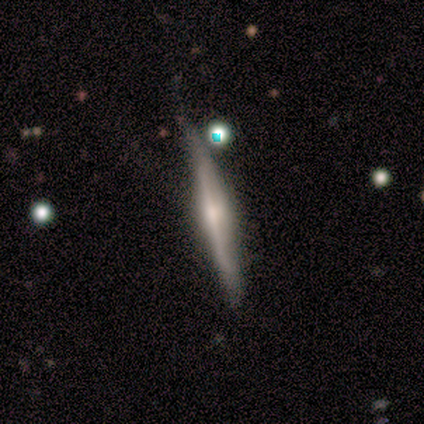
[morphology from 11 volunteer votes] This is clearly a featured or disk galaxy (91%). It is clearly viewed edge-on (100%). Edge-on bulge: clearly rounded (80%). Merging: likely none (64%).